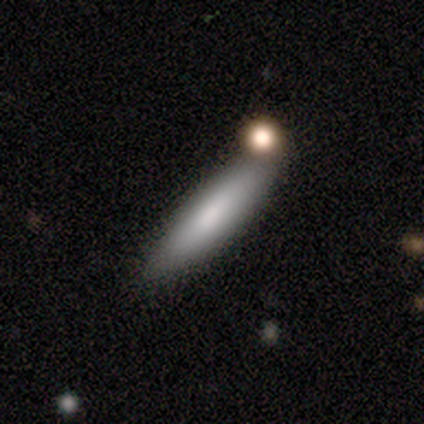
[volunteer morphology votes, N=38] Smooth or featured?
  - smooth: 71% *
  - featured or disk: 21%
  - star or artifact: 8%
How rounded?
  - cigar-shaped: 70% *
  - in between: 30%
  - round: 0%
Merging?
  - none: 74% *
  - minor disturbance: 14%
  - merger: 9%
  - major disturbance: 3%